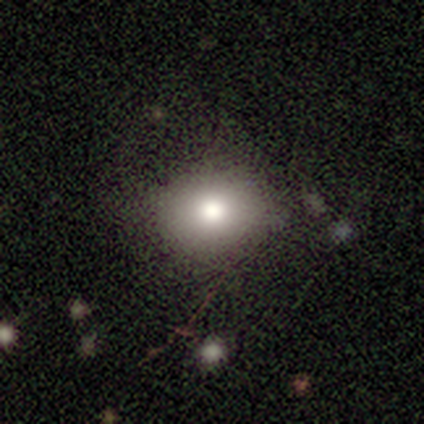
Smooth or featured? smooth (80%)
How rounded? round (50%, tied with in between)
Merging? none (80%)